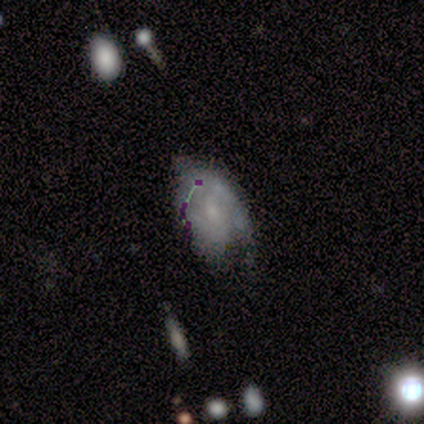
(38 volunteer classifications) Smooth or featured? featured or disk (45%)
Edge-on disk? no (94%)
Bar? weak (56%)
Spiral arms? yes (88%)
Spiral winding? tight (36%, tied with medium)
Spiral arm count? 2 (57%)
Bulge size? small (56%)
Merging? none (50%)